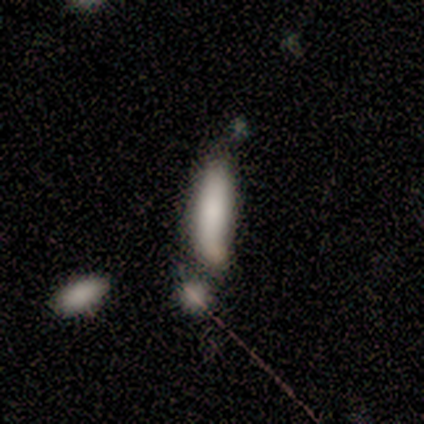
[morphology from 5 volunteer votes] A smooth galaxy with no disk features (100%) that is cigar-shaped (80%). Merging: merger (60%).